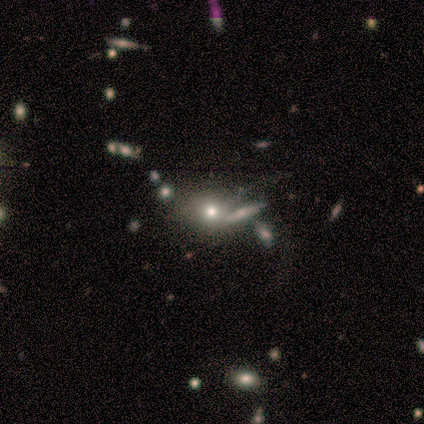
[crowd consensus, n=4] Overall: smooth (100%). How rounded: round (75%). Merging: none (100%).